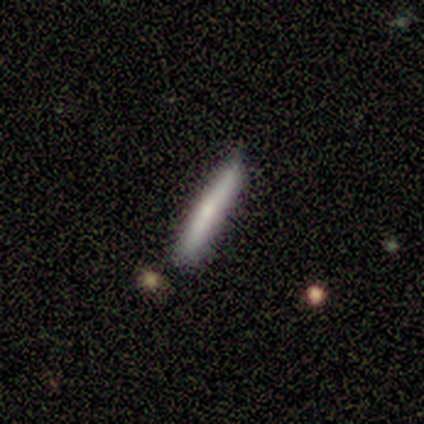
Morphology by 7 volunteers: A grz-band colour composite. It shows a smooth galaxy with no disk features (71%) that is cigar-shaped (100%). Merging: none (71%).